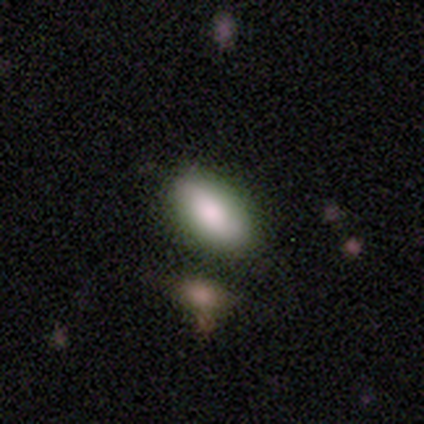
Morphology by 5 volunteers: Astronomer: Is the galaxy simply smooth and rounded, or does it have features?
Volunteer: star or artifact — 60% (runner-up: smooth, 40%).